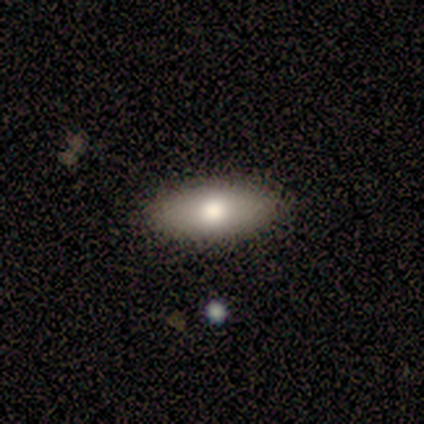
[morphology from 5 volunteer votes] Smooth or featured? smooth (60%)
How rounded? in between (100%)
Merging? none (80%)